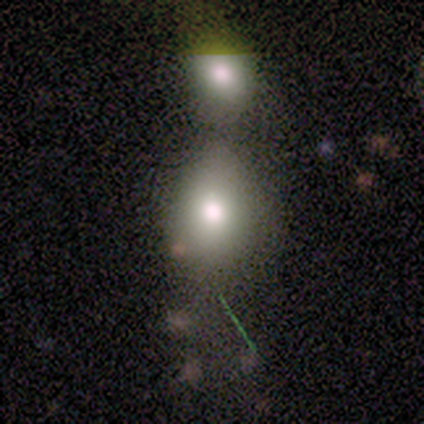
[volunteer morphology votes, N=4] type=smooth (75%); roundness=in between (67%); merging=merger (50%).